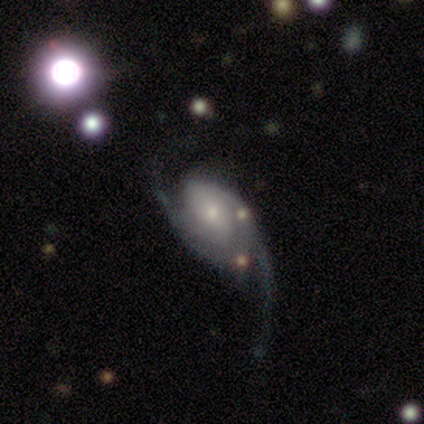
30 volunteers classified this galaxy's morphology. featured or disk 77%, smooth 13%, star or artifact 10%. Down the decision tree: edge-on disk — no (96%); bar — no (68%); spiral arms — yes (95%); spiral arm count — 2 (81%); spiral winding — loose (38%); bulge size — moderate (55%); merging — major disturbance (56%).